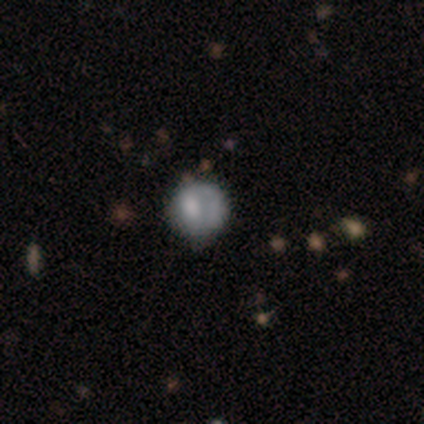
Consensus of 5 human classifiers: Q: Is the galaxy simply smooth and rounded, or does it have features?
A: smooth — 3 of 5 (60%).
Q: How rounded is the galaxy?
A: round — 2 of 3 (67%).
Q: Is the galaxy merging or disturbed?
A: minor disturbance — 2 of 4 (50%).